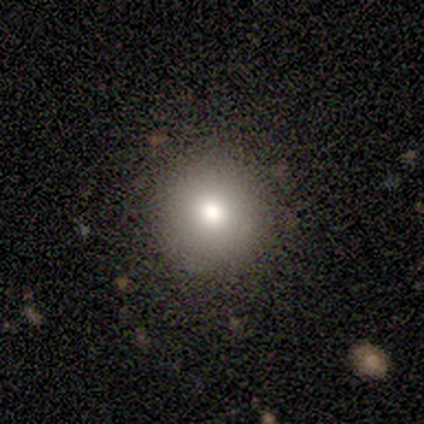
Overall: smooth (100%). How rounded: round (100%). Merging: none (100%).